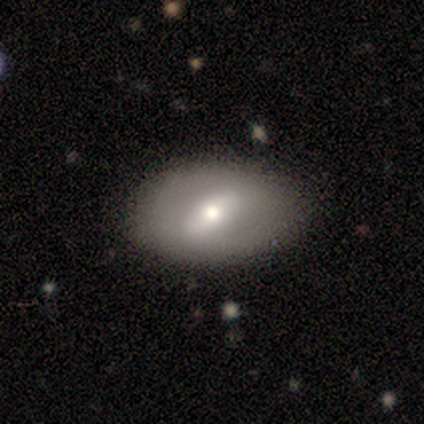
This appears to be a featured or disk galaxy (73%) with no bar (62%), no spiral arms (100%) and a moderate central bulge (100%). Merging: none (82%).